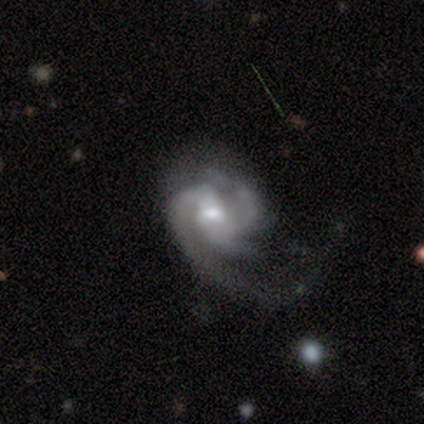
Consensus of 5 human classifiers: This appears to be a featured or disk galaxy (100%) with no bar (60%), 3 (60%) medium (80%) spiral arms (100%) and a moderate central bulge (60%). Merging: major disturbance (60%).